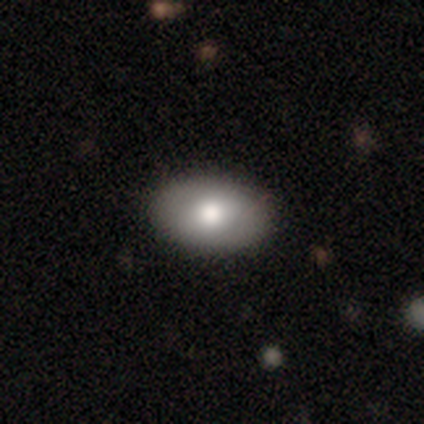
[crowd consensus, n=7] This is marginally a smooth galaxy (43%, tied with featured or disk). How rounded: clearly in between (100%). Merging: clearly none (83%).